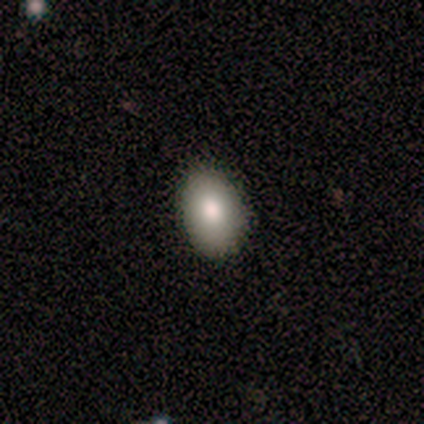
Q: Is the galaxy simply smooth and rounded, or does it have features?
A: smooth — 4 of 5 (80%).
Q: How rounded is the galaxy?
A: in between — 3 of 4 (75%).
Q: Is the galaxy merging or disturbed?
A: none — 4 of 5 (80%).